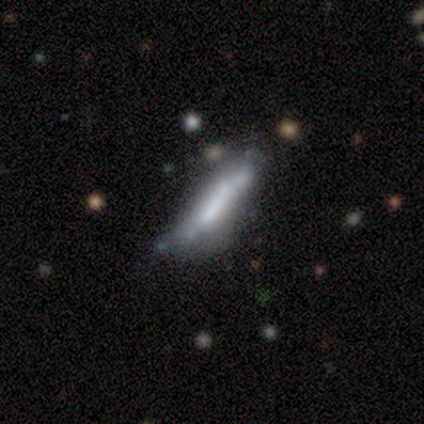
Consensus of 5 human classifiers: Smooth or featured? smooth (80%)
How rounded? cigar-shaped (100%)
Merging? minor disturbance (40%)